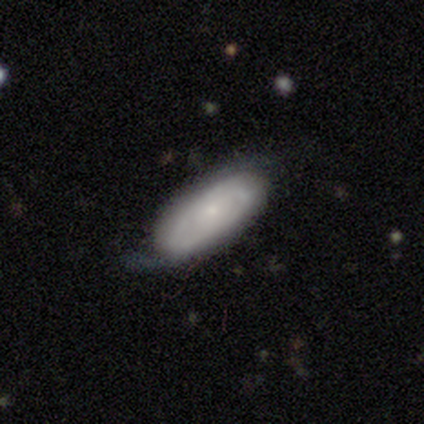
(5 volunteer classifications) Overall: featured or disk (80%). Edge-on disk: no (100%). Bar: no (75%). Spiral arms: yes (75%). Spiral arm count: 2 (67%; can't tell 33%). Spiral winding: tight (33%, tied with medium and loose). Bulge size: small (75%). Merging: none (80%).